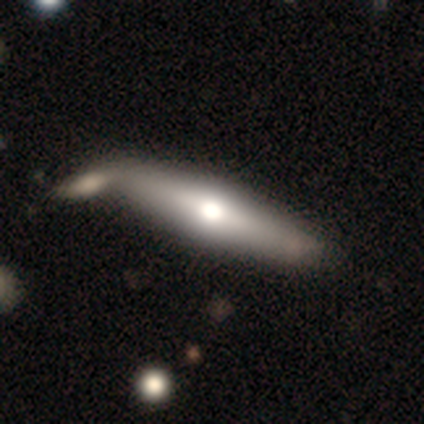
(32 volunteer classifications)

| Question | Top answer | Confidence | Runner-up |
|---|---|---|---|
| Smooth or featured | featured or disk | 59% | smooth (41%) |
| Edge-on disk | yes | 74% | no (26%) |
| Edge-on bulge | rounded | 93% | none (7%) |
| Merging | none | 41% | merger (34%) |